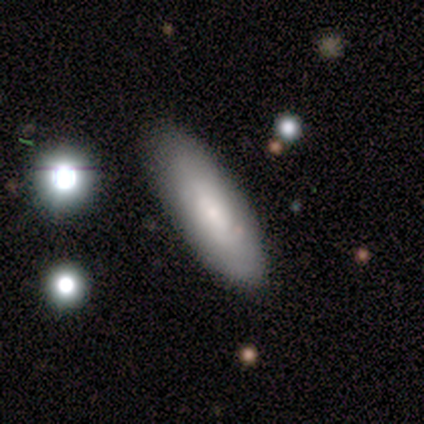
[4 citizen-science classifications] smooth_or_featured: smooth (p=1.00)
how_rounded: in between (p=0.75) [alt: cigar-shaped p=0.25]
merging: none (p=0.75) [alt: major disturbance p=0.25]